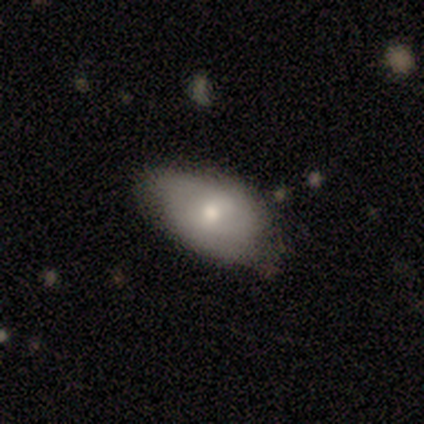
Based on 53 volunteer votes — Overall: smooth (64%; featured or disk 34%). How rounded: in between (97%). Merging: none (60%; minor disturbance 35%).